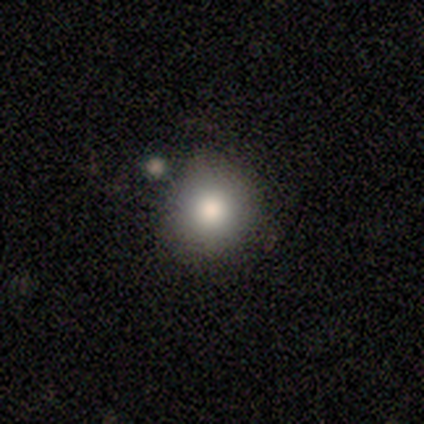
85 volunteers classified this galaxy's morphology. type=smooth (75%); roundness=round (92%); merging=none (80%).